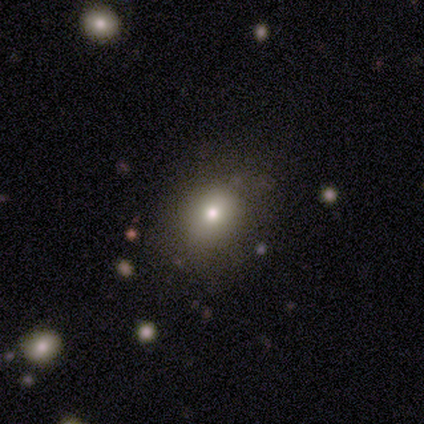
Smooth or featured?
  - smooth: 62% *
  - featured or disk: 22%
  - star or artifact: 16%
How rounded?
  - round: 70% *
  - in between: 30%
  - cigar-shaped: 0%
Merging?
  - none: 74% *
  - minor disturbance: 23%
  - major disturbance: 3%
  - merger: 0%